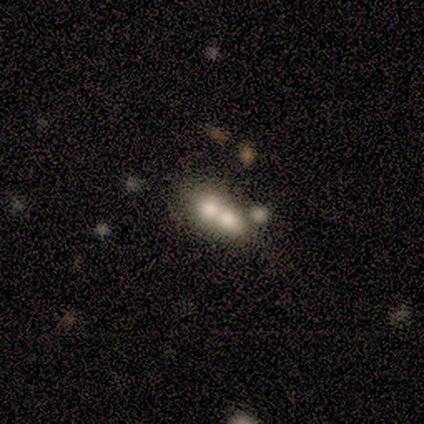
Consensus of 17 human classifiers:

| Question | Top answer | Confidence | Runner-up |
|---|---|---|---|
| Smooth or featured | smooth | 59% | featured or disk (29%) |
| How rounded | in between | 50% | round (40%) |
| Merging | merger | 93% | none (7%) |